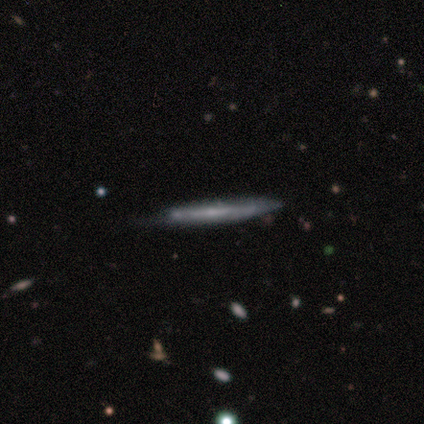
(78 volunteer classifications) This appears to be a featured or disk galaxy (54%) viewed edge-on (98%) with no central bulge (73%). Merging: none (34%).